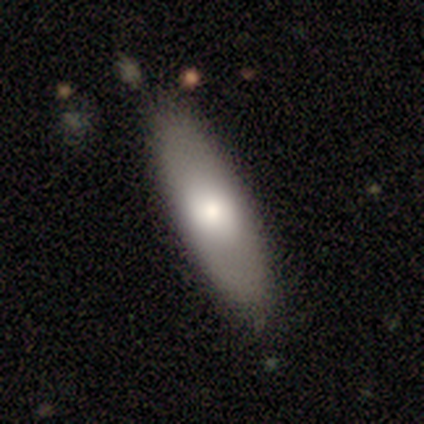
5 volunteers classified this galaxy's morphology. This appears to be a smooth galaxy with no disk features (80%) that is in between round and cigar-shaped (50%, tied with cigar-shaped). Merging: none (100%).